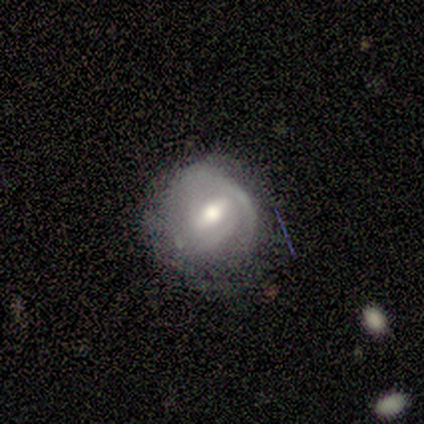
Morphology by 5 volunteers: A featured or disk galaxy (60%) with a strong bar (33%, tied with weak and no), 1 (33%, tied with 3 and can't tell) tight (67%) spiral arms (100%) and a moderate central bulge (67%). Merging: minor disturbance (60%).